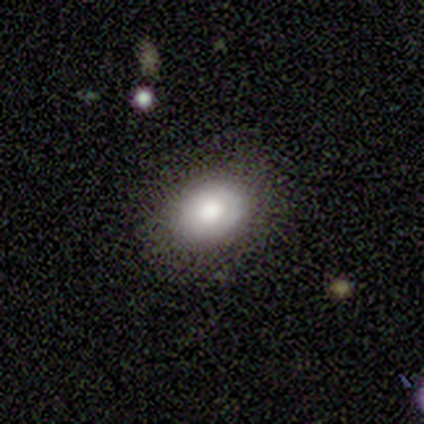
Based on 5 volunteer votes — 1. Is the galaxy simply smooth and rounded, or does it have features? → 60% smooth, 40% featured or disk, 0% star or artifact.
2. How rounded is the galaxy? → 67% in between, 33% round, 0% cigar-shaped.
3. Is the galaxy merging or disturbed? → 100% none, 0% minor disturbance, 0% major disturbance, 0% merger.